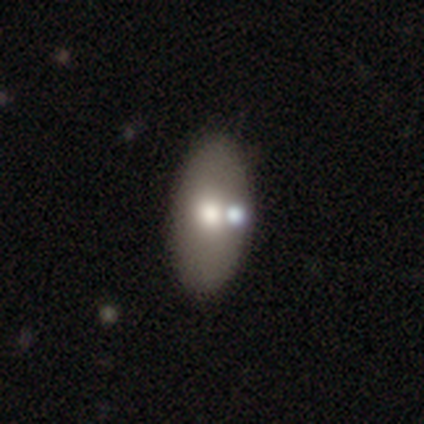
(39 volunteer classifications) Smooth or featured?
  - smooth: 79% *
  - featured or disk: 18%
  - star or artifact: 3%
How rounded?
  - in between: 97% *
  - cigar-shaped: 3%
  - round: 0%
Merging?
  - none: 68% *
  - merger: 11%
  - major disturbance: 3%
  - minor disturbance: 0%